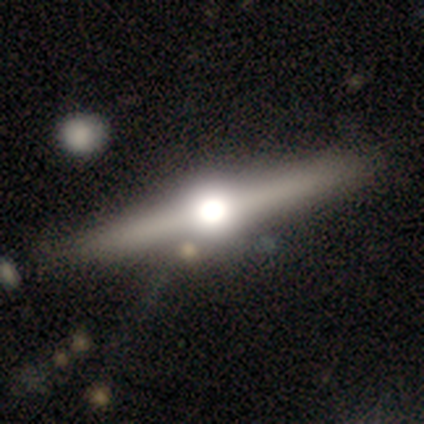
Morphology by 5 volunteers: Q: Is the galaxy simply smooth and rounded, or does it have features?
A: featured or disk — 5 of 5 (100%).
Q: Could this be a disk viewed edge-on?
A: yes — 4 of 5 (80%).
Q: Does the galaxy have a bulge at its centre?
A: rounded — 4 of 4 (100%).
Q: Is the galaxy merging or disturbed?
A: none — 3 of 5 (60%).